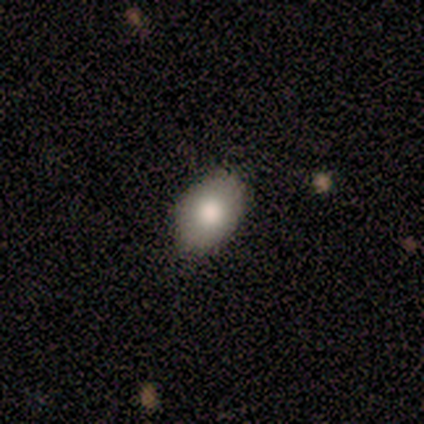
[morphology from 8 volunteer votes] Smooth or featured: smooth — 88% (featured or disk — 12%)
How rounded: in between — 100%
Merging: none — 75% (minor disturbance — 12%)